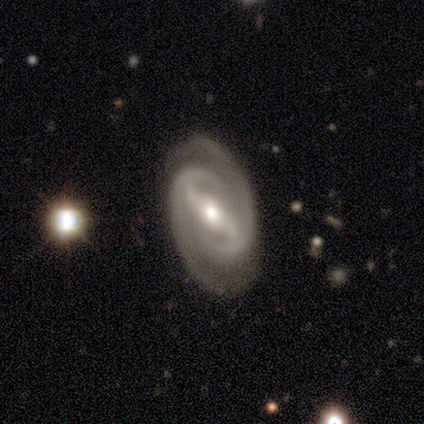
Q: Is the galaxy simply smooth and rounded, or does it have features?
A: featured or disk — 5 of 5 (100%).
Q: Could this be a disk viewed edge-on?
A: no — 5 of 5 (100%).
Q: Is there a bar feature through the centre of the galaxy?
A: strong — 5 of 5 (100%).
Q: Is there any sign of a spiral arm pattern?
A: yes — 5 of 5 (100%).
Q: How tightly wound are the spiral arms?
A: tight — 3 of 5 (60%).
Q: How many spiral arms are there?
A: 2 — 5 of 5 (100%).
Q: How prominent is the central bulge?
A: moderate — 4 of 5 (80%).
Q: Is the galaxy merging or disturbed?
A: none — 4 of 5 (80%).